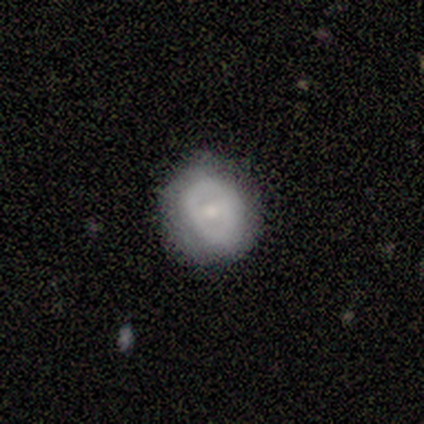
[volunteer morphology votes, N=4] A smooth galaxy with no disk features (50%) that is round (100%).

Vote fractions:
- Smooth or featured? smooth: 50% / featured or disk: 25% / star or artifact: 25%
- How rounded? round: 100% / in between: 0% / cigar-shaped: 0%
- Merging? none: 67% / minor disturbance: 33% / major disturbance: 0% / merger: 0%